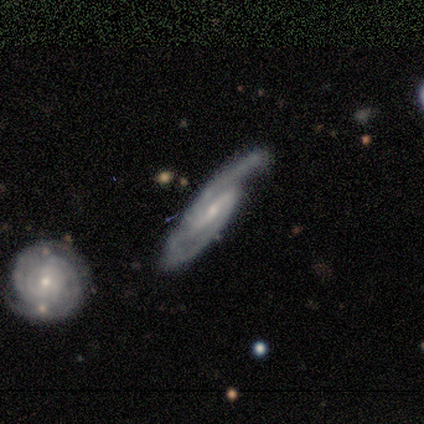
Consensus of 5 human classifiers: Smooth or featured? 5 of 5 (100%) said featured or disk. Edge-on disk? 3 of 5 (60%) said no. Bar? 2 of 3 (67%) said weak. Spiral arms? 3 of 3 (100%) said yes. Spiral winding? 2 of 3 (67%) said medium. Spiral arm count? 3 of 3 (100%) said 2. Bulge size? 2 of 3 (67%) said moderate. Merging? 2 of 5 (40%, tied with merger) said minor disturbance.